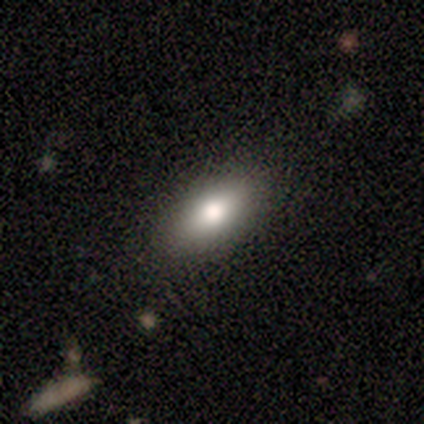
Q: Smooth or featured?
A: smooth (80%); runner-up: featured or disk (20%)
Q: How rounded?
A: in between (50%); tied with: cigar-shaped (50%)
Q: Merging?
A: none (80%); runner-up: minor disturbance (20%)